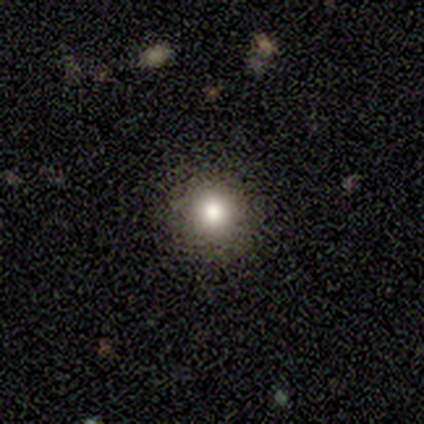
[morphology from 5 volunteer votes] Smooth or featured?
  - smooth: 60% *
  - featured or disk: 20%
  - star or artifact: 20%
How rounded?
  - round: 100% *
  - in between: 0%
  - cigar-shaped: 0%
Merging?
  - none: 100% *
  - minor disturbance: 0%
  - major disturbance: 0%
  - merger: 0%